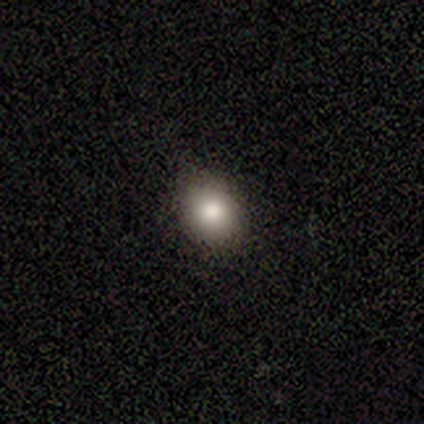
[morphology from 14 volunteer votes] This is clearly a smooth galaxy (93%). How rounded: possibly in between (54%). Merging: clearly none (85%).